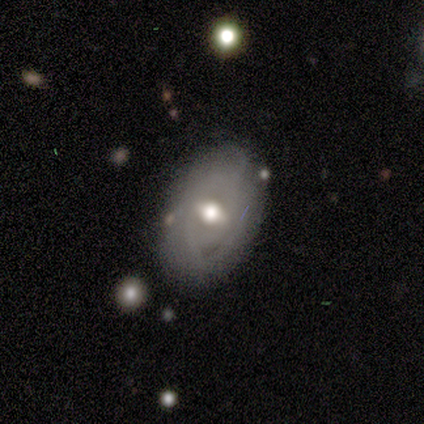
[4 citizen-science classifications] smooth_or_featured: featured or disk (p=1.00)
disk_edge_on: no (p=1.00)
bar: weak (p=0.50) [tied with: no p=0.50]
has_spiral_arms: yes (p=1.00)
spiral_winding: tight (p=0.50) [alt: medium p=0.25]
spiral_arm_count: can't tell (p=0.75) [alt: 2 p=0.25]
bulge_size: moderate (p=0.75) [alt: small p=0.25]
merging: none (p=0.75) [alt: minor disturbance p=0.25]